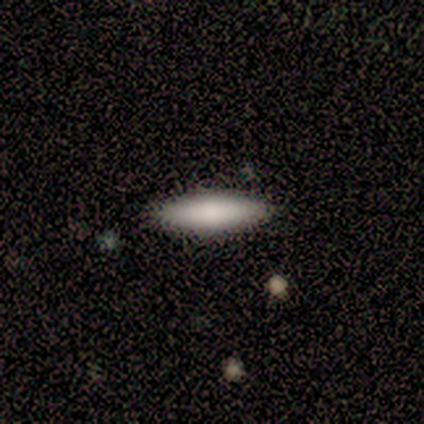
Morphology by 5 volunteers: smooth_or_featured: smooth (p=0.80) [alt: featured or disk p=0.20]
how_rounded: in between (p=0.50) [tied with: cigar-shaped p=0.50]
merging: none (p=1.00)